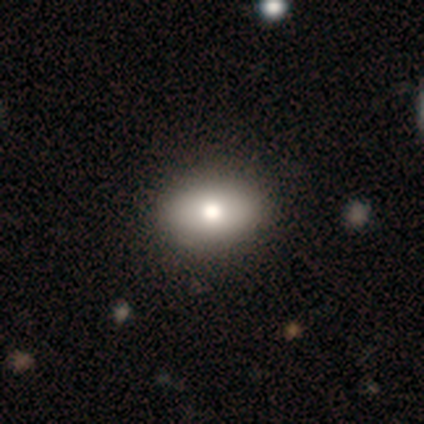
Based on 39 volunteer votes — smooth_or_featured: smooth (p=0.85) [alt: featured or disk p=0.13]
how_rounded: in between (p=0.82) [alt: round p=0.15]
merging: none (p=0.61) [alt: minor disturbance p=0.11]